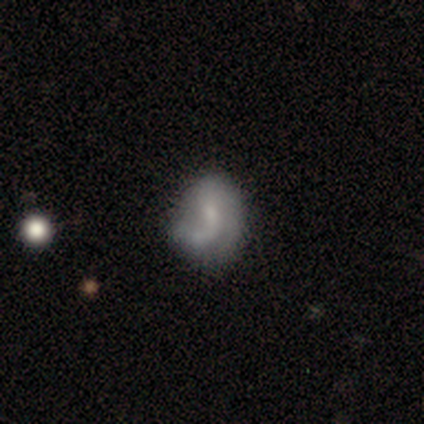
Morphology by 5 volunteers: smooth_or_featured: featured or disk (p=0.60) [alt: smooth p=0.40]
disk_edge_on: no (p=1.00)
bar: no (p=0.67) [alt: weak p=0.33]
has_spiral_arms: yes (p=0.67) [alt: no p=0.33]
spiral_winding: medium (p=1.00)
spiral_arm_count: 1 (p=0.50) [tied with: 2 p=0.50]
bulge_size: small (p=0.67) [alt: none p=0.33]
merging: none (p=0.40) [tied with: minor disturbance p=0.40]